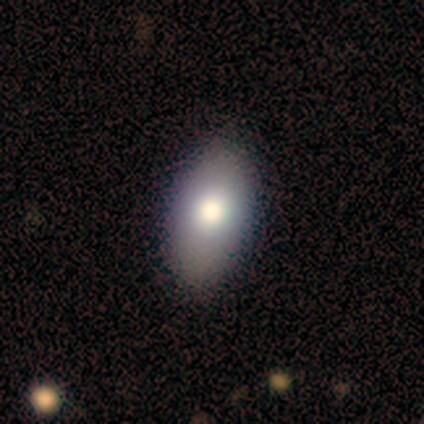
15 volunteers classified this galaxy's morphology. Q: Smooth or featured?
A: smooth (73%); runner-up: featured or disk (13%)
Q: How rounded?
A: in between (100%)
Q: Merging?
A: none (85%); runner-up: minor disturbance (15%)